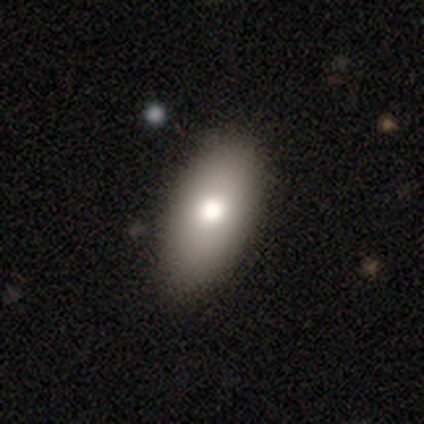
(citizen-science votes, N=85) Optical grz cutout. It shows a smooth galaxy with no disk features (80%) that is in between round and cigar-shaped (96%). Merging: none (79%).